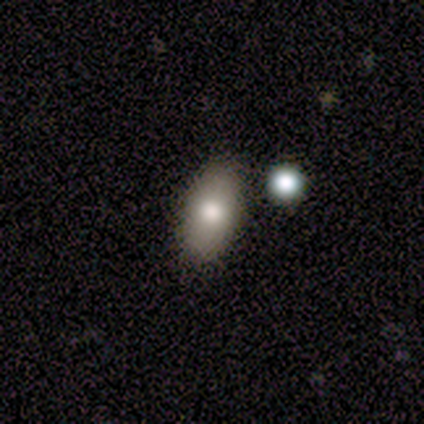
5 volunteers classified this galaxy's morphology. A smooth galaxy with no disk features (60%) that is in between round and cigar-shaped (100%).

Vote fractions:
- Smooth or featured? smooth: 60% / featured or disk: 20% / star or artifact: 20%
- How rounded? in between: 100% / round: 0% / cigar-shaped: 0%
- Merging? none: 100% / minor disturbance: 0% / major disturbance: 0% / merger: 0%